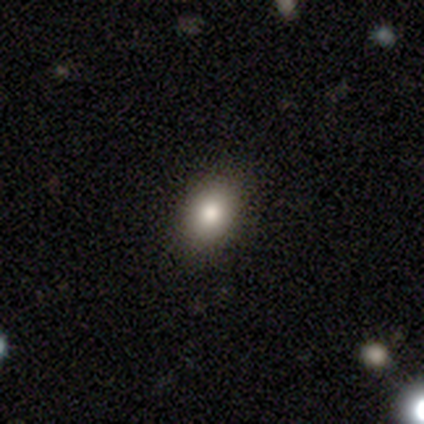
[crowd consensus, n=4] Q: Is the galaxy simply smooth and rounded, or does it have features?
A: smooth — 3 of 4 (75%).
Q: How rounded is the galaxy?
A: in between — 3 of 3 (100%).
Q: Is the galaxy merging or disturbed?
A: none — 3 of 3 (100%).